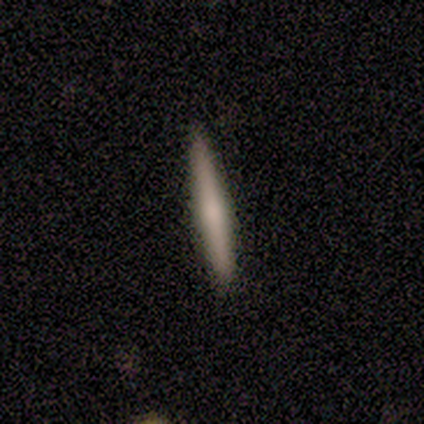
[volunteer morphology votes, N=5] A featured or disk galaxy (80%) viewed edge-on (100%) with a rounded central bulge (100%).

Vote fractions:
- Smooth or featured? featured or disk: 80% / smooth: 20% / star or artifact: 0%
- Edge-on disk? yes: 100% / no: 0%
- Edge-on bulge? rounded: 100% / boxy: 0% / none: 0%
- Merging? none: 100% / minor disturbance: 0% / major disturbance: 0% / merger: 0%